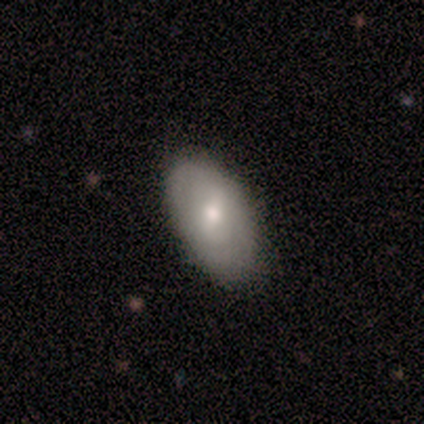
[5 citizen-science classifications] This appears to be a smooth galaxy with no disk features (60%) that is in between round and cigar-shaped (100%). Merging: none (80%).